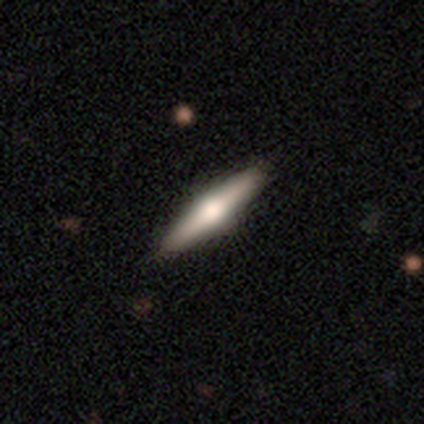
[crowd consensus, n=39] featured or disk 79%, smooth 21%, star or artifact 0%. Down the decision tree: edge-on disk — yes (97%); edge-on bulge — rounded (93%); merging — none (54%).